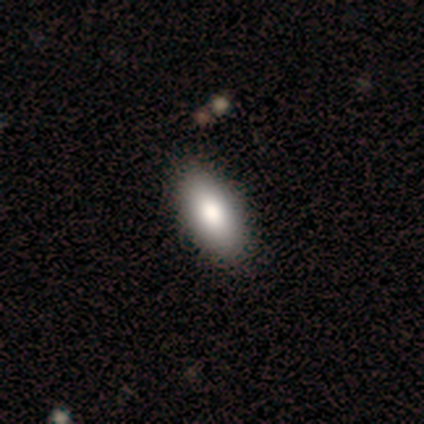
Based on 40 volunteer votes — Overall: smooth (80%). How rounded: in between (97%). Merging: none (90%).